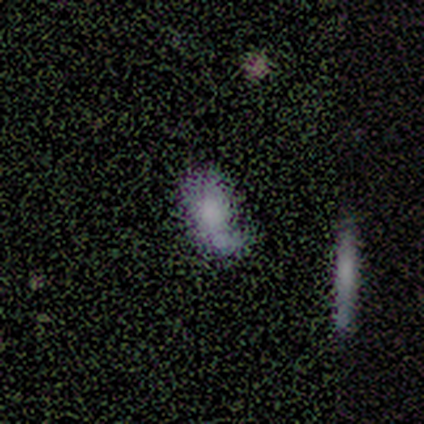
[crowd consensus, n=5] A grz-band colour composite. It shows a smooth galaxy with no disk features (60%) that is in between round and cigar-shaped (100%). Merging: none (25%, tied with minor disturbance, major disturbance and merger).